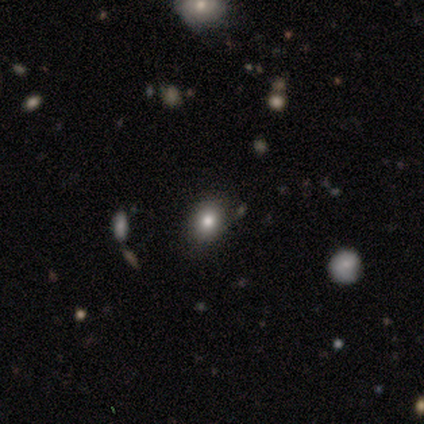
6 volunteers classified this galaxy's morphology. This appears to be a smooth galaxy with no disk features (67%) that is in between round and cigar-shaped (75%). Merging: none (83%).